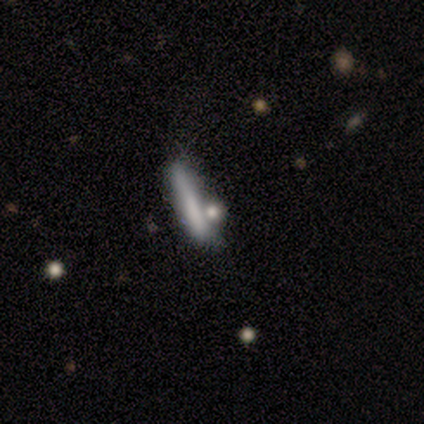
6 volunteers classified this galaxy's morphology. A smooth galaxy with no disk features (83%) that is cigar-shaped (100%). Merging: none (60%).